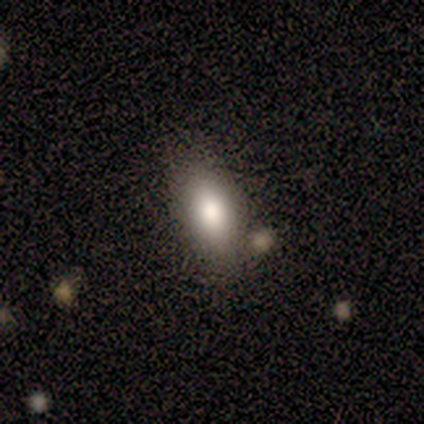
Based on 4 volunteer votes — Q: Smooth or featured?
A: smooth (100%)
Q: How rounded?
A: in between (75%); runner-up: round (25%)
Q: Merging?
A: none (75%); runner-up: minor disturbance (25%)